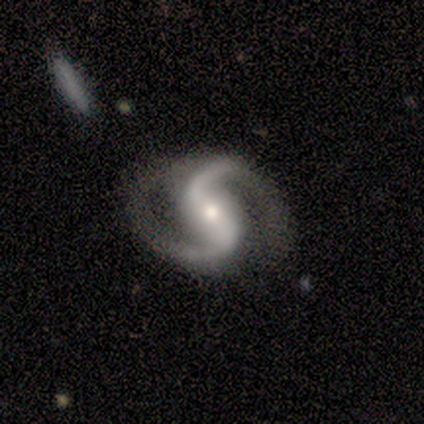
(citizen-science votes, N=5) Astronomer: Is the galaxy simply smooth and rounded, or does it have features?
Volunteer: featured or disk — 100%.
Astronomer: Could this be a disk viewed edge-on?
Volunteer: no — 100%.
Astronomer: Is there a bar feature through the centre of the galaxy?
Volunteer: weak — 60%.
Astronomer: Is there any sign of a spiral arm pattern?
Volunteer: yes — 100%.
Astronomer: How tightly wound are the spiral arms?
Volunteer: loose — 60% (runner-up: medium, 40%).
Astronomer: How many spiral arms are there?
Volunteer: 2 — 100%.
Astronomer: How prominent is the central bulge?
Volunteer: small — 60% (runner-up: moderate, 40%).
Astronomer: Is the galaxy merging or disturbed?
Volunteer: minor disturbance — 60% (runner-up: none, 40%).